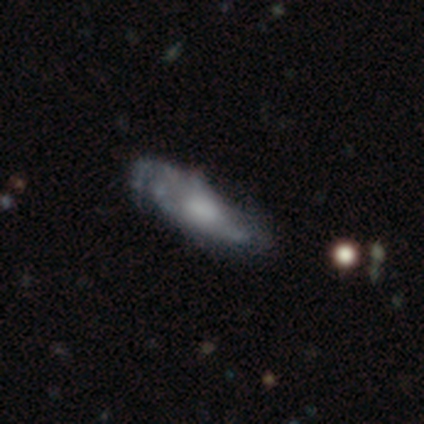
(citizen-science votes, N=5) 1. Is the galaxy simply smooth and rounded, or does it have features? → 60% featured or disk, 40% star or artifact, 0% smooth.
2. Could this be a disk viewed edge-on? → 67% no, 33% yes.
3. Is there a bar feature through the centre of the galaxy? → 50% weak (tied), 50% no (tied), 0% strong.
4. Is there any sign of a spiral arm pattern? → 50% yes (tied), 50% no (tied).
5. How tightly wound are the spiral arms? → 100% loose, 0% tight, 0% medium.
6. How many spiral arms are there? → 100% can't tell, 0% 1, 0% 2, 0% 3, 0% 4, 0% more than 4.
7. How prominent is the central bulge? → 50% moderate (tied), 50% none (tied), 0% dominant, 0% large, 0% small.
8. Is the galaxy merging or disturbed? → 67% none, 33% major disturbance, 0% minor disturbance, 0% merger.